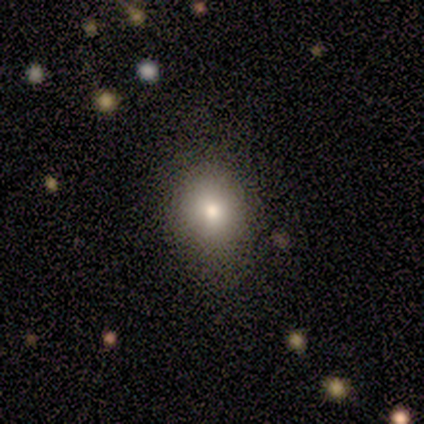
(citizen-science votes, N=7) Q: Smooth or featured?
A: smooth (86%); runner-up: star or artifact (14%)
Q: How rounded?
A: round (67%); runner-up: in between (33%)
Q: Merging?
A: none (67%); runner-up: minor disturbance (17%)